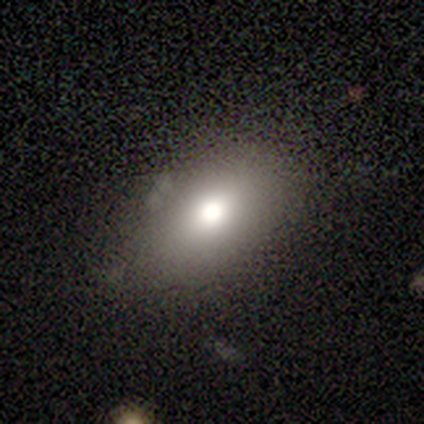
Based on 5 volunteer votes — Volunteers were most divided on "smooth or featured": smooth: 80%, featured or disk: 20%, star or artifact: 0%. More confident: how rounded — in between (100%); merging — none (100%).